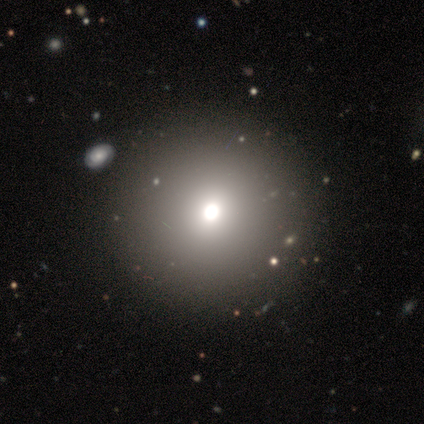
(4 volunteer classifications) Smooth or featured? 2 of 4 (50%) said featured or disk. Edge-on disk? 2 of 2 (100%) said no. Bar? 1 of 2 (50%, tied with no) said strong. Spiral arms? 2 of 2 (100%) said no. Bulge size? 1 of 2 (50%, tied with moderate) said dominant. Merging? 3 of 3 (100%) said none.